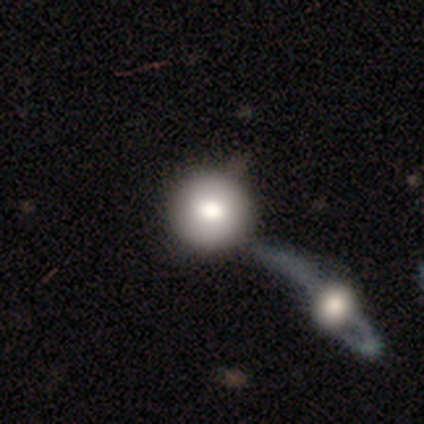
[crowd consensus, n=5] A smooth galaxy with no disk features (80%) that is round (100%). Merging: minor disturbance (40%, tied with merger).